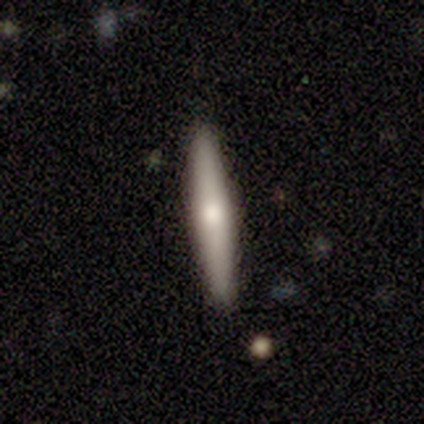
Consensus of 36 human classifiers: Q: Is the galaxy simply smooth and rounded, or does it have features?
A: smooth — 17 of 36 (47%).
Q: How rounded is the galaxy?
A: cigar-shaped — 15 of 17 (88%).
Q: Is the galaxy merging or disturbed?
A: none — 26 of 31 (84%).